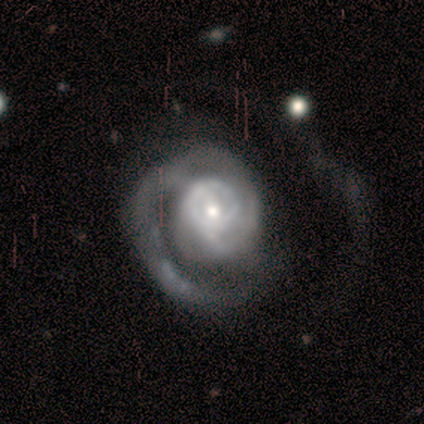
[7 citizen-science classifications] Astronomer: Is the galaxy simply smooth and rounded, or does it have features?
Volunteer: featured or disk — 86%.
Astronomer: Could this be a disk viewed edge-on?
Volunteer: no — 100%.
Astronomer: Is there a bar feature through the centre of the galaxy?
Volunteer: no — 83%.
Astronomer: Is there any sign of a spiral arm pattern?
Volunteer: yes — 100%.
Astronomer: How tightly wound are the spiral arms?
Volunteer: tight — 33%, tied with medium and loose at 33%.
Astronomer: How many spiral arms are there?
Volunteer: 1 — 33%, tied with 2 and can't tell at 33%.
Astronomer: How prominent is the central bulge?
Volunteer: moderate — 50% (runner-up: small, 33%).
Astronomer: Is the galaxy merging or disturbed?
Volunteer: none — 57%.